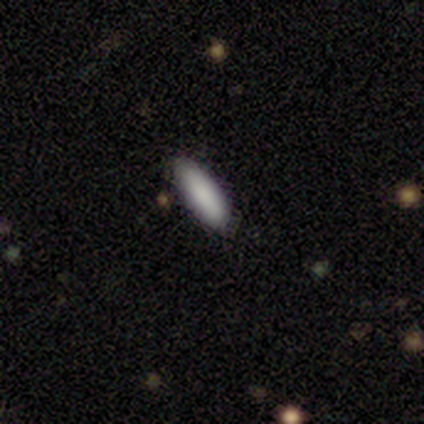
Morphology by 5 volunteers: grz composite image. It shows a smooth galaxy with no disk features (100%) that is cigar-shaped (80%). Merging: none (100%).